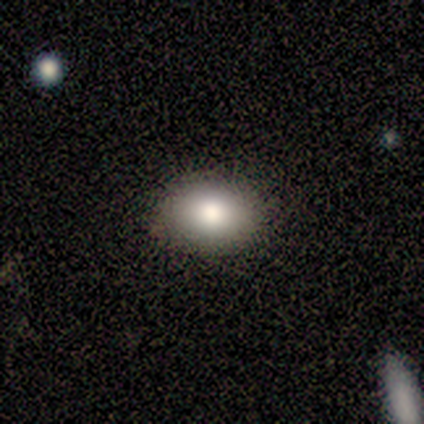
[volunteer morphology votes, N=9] Smooth or featured? smooth (78%)
How rounded? in between (86%)
Merging? none (62%)